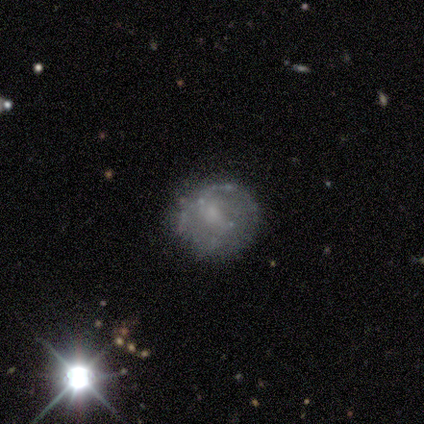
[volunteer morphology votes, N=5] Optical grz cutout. It shows a featured or disk galaxy (80%) with no bar (75%), no spiral arms (100%) and a small central bulge (50%). Merging: none (50%).